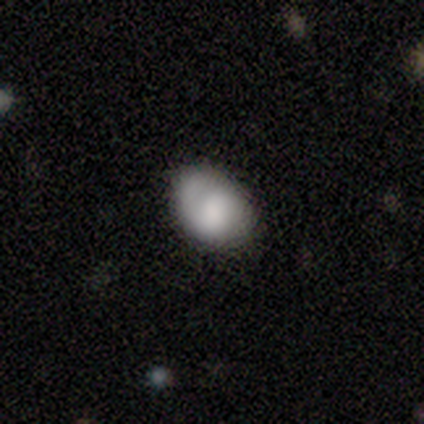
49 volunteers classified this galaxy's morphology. Volunteers were most divided on "merging": none: 55%, minor disturbance: 34%, major disturbance: 9%, merger: 2%. More confident: how rounded — in between (78%); smooth or featured — smooth (65%).